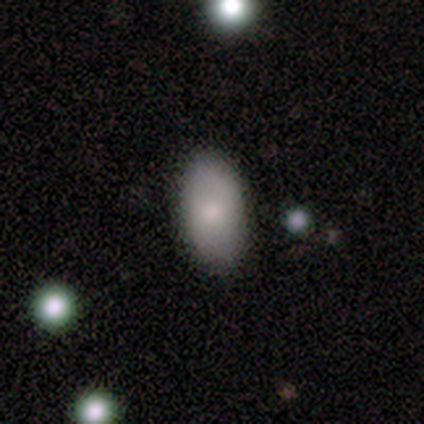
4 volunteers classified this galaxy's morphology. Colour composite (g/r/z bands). It shows a smooth galaxy with no disk features (75%) that is in between round and cigar-shaped (100%). Merging: none (100%).